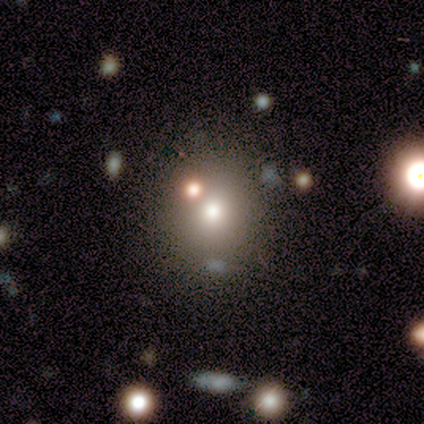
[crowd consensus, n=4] Smooth or featured?
  - smooth: 100% *
  - featured or disk: 0%
  - star or artifact: 0%
How rounded?
  - round: 50% * (tied)
  - in between: 50% * (tied)
  - cigar-shaped: 0%
Merging?
  - none: 100% *
  - minor disturbance: 0%
  - major disturbance: 0%
  - merger: 0%